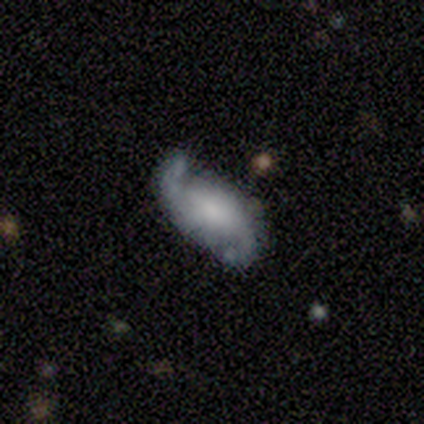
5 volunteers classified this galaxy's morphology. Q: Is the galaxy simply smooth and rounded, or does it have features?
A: featured or disk — 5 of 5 (100%).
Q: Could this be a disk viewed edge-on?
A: no — 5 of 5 (100%).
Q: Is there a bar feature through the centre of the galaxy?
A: strong — 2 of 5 (40%, tied with no).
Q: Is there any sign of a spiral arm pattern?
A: yes — 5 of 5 (100%).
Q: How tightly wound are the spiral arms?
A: loose — 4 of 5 (80%).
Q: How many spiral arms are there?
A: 2 — 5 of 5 (100%).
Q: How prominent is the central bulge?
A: moderate — 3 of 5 (60%).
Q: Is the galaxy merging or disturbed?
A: none — 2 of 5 (40%, tied with minor disturbance).